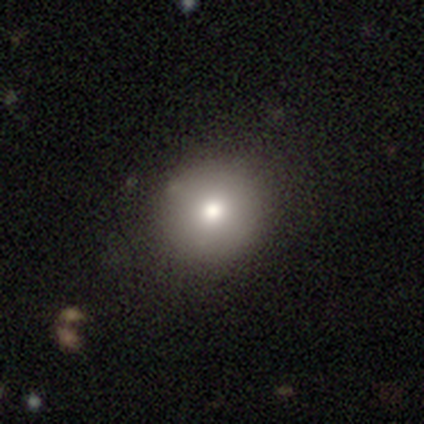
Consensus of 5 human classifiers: Overall: smooth (40%, tied with featured or disk). How rounded: round (50%, tied with in between). Merging: none (75%).